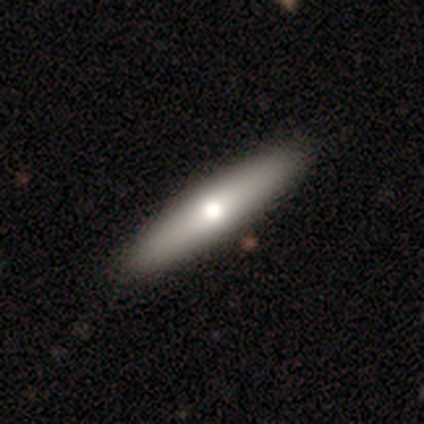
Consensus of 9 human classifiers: Q: Smooth or featured?
A: smooth (67%); runner-up: featured or disk (33%)
Q: How rounded?
A: cigar-shaped (67%); runner-up: in between (33%)
Q: Merging?
A: none (89%); runner-up: minor disturbance (11%)